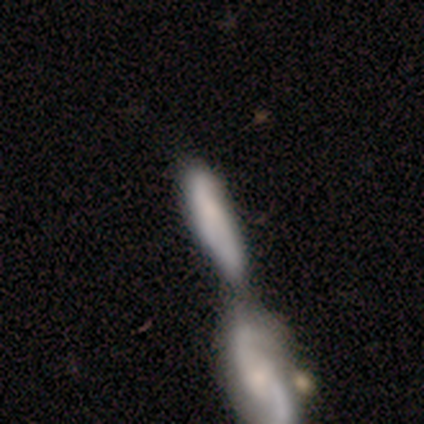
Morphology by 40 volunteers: Overall: smooth (70%). How rounded: cigar-shaped (75%). Merging: merger (69%).